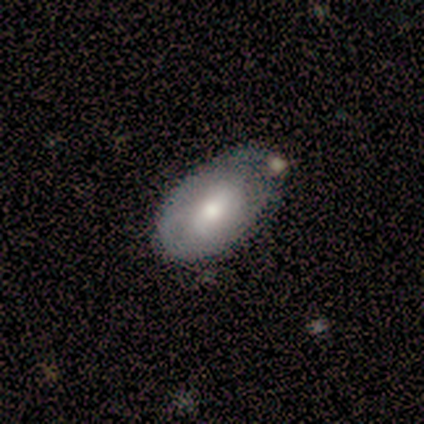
featured or disk 60%, smooth 40%, star or artifact 0%. Down the decision tree: edge-on disk — no (100%); bar — no (100%); spiral arms — no (67%); bulge size — moderate (100%); merging — none (80%).